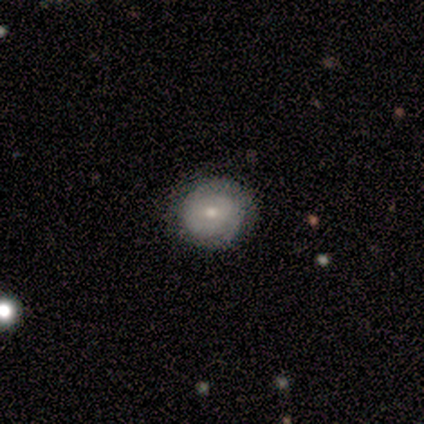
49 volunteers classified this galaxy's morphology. Smooth or featured? featured or disk (61%)
Edge-on disk? no (100%)
Bar? no (80%)
Spiral arms? yes (83%)
Spiral winding? tight (80%)
Spiral arm count? 2 (64%)
Bulge size? small (63%)
Merging? none (89%)